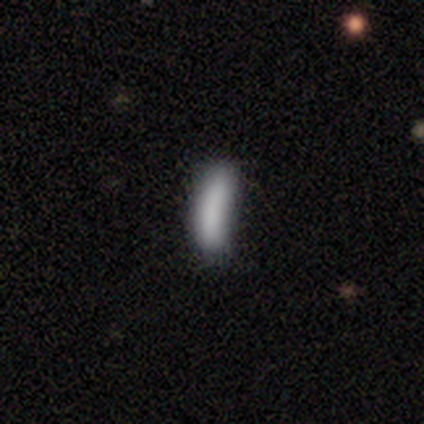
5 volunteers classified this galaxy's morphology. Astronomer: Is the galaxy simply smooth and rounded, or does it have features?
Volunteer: smooth — 80%.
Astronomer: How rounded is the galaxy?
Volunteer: in between — 50%, tied with cigar-shaped at 50%.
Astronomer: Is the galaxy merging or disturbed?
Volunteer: minor disturbance — 50%.